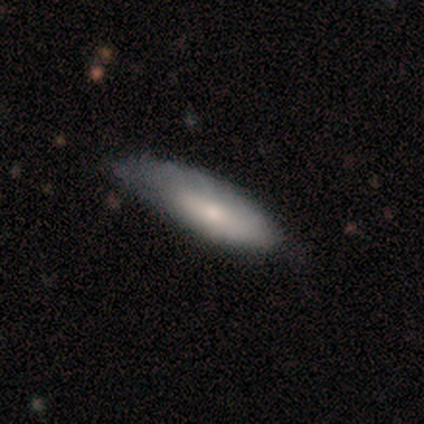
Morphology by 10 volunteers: This is clearly a smooth galaxy (100%). How rounded: likely in between (70%). Merging: possibly none (50%).